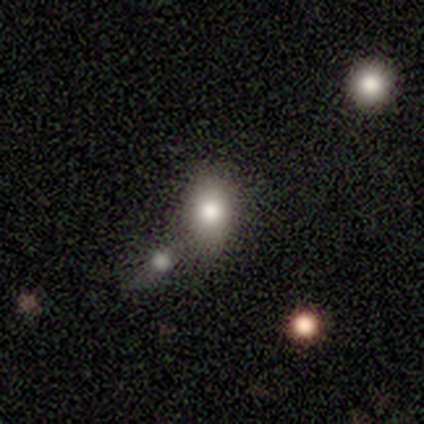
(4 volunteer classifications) smooth-or-featured: smooth: 100% | featured or disk: 0% | star or artifact: 0%
  how-rounded: in between: 75% | round: 25% | cigar-shaped: 0%
  merging: none: 50% (tied) | merger: 50% (tied) | minor disturbance: 0% | major disturbance: 0%